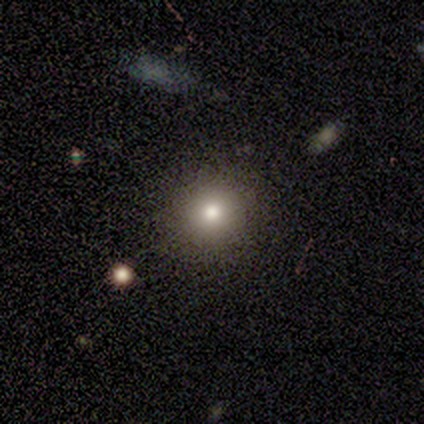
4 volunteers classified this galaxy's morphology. smooth 75%, star or artifact 25%, featured or disk 0%. Down the decision tree: how rounded — round (100%); merging — none (100%).